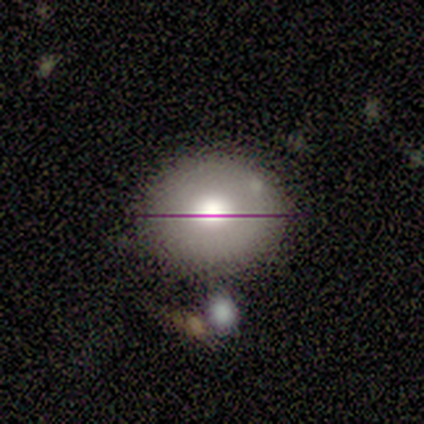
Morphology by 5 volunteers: smooth 80%, featured or disk 20%, star or artifact 0%. Down the decision tree: how rounded — round (100%); merging — none (100%).